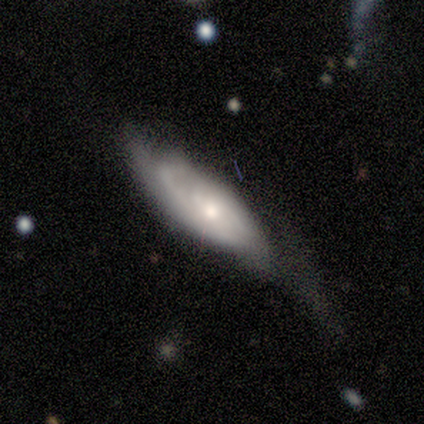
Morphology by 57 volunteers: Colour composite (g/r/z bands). It shows a featured or disk galaxy (75%) with no bar (69%), medium (47%) spiral arms (89%) and a moderate central bulge (56%). Merging: major disturbance (49%).